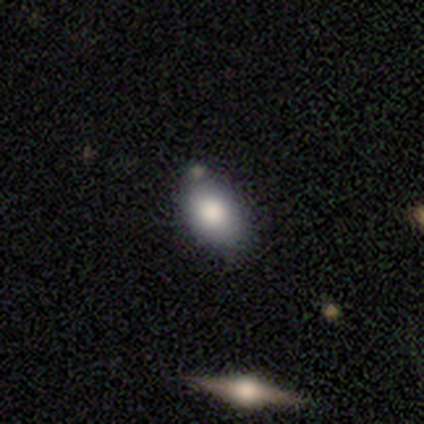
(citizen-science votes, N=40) Q: Smooth or featured?
A: smooth (72%); runner-up: featured or disk (15%)
Q: How rounded?
A: in between (86%); runner-up: round (14%)
Q: Merging?
A: none (63%); runner-up: minor disturbance (23%)